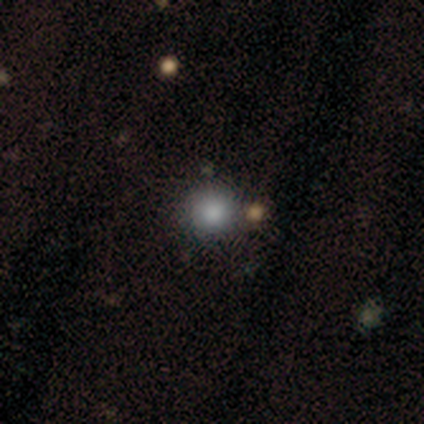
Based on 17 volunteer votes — This appears to be a smooth galaxy with no disk features (88%) that is round (100%). Merging: none (82%).